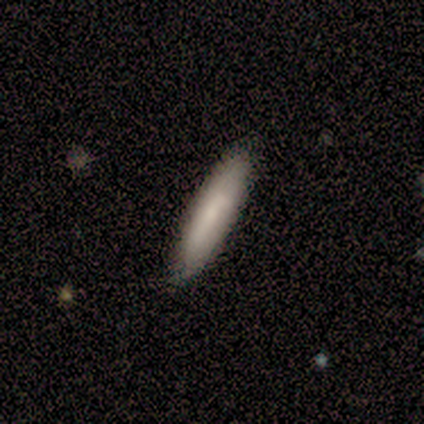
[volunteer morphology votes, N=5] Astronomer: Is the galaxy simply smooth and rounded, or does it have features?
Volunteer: smooth — 100%.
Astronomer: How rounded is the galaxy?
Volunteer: cigar-shaped — 100%.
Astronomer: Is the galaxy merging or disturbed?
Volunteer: none — 100%.